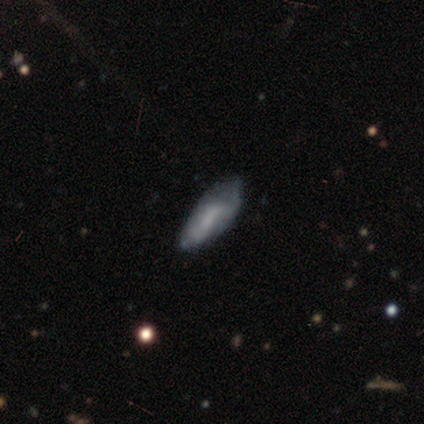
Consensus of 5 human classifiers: Q: Smooth or featured?
A: smooth (60%); runner-up: featured or disk (40%)
Q: How rounded?
A: in between (100%)
Q: Merging?
A: minor disturbance (60%); runner-up: none (20%)